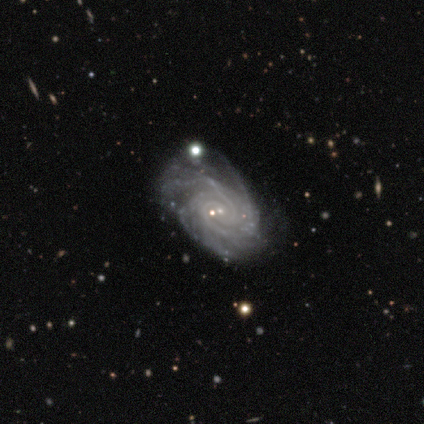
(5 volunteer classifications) A featured or disk galaxy (100%) with no bar (80%), tight (80%) spiral arms (100%) and a small central bulge (100%). Merging: none (60%).